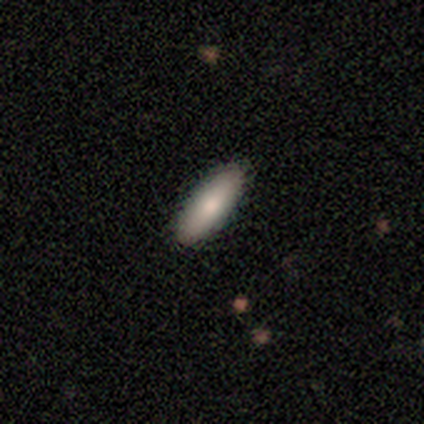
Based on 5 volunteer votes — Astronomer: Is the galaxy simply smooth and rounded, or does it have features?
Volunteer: smooth — 80%.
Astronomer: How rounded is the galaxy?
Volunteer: cigar-shaped — 100%.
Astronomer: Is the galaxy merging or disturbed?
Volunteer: none — 100%.